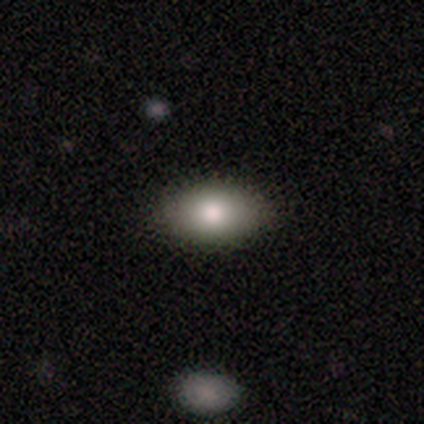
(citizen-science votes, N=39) A smooth galaxy with no disk features (92%) that is in between round and cigar-shaped (97%). Merging: none (70%).